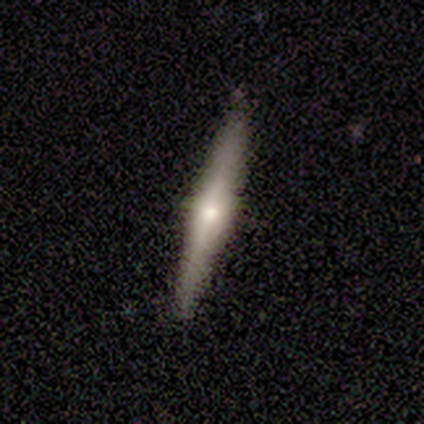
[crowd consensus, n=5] Smooth or featured: smooth — 40% (tied with featured or disk — 40%)
How rounded: cigar-shaped — 100%
Merging: none — 100%